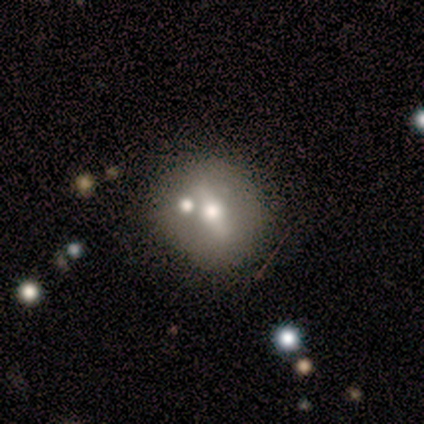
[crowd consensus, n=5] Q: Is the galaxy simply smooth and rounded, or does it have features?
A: featured or disk — 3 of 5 (60%).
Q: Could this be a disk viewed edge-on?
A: no — 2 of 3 (67%).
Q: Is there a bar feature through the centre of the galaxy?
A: strong — 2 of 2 (100%).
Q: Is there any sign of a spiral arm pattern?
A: yes — 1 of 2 (50%, tied with no).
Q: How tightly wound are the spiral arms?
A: tight — 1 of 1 (100%).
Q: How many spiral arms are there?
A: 2 — 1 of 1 (100%).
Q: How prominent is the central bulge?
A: large — 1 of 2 (50%, tied with moderate).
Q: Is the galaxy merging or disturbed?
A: none — 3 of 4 (75%).